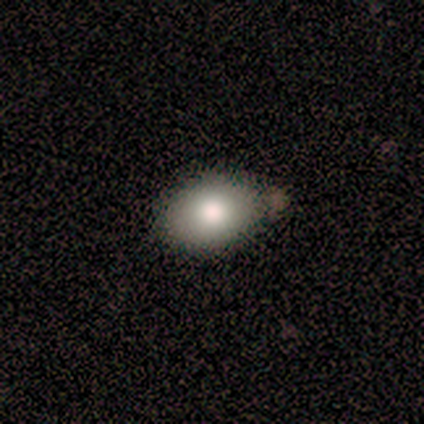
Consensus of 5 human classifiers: Smooth or featured? smooth (100%)
How rounded? in between (100%)
Merging? none (40%, tied with minor disturbance)